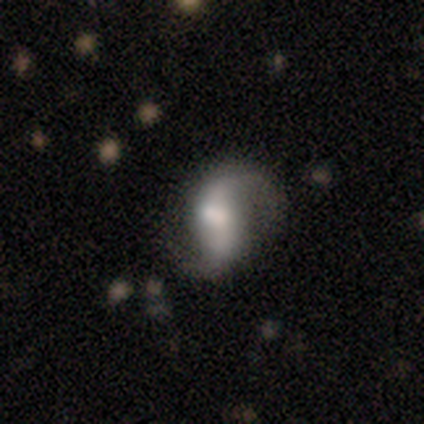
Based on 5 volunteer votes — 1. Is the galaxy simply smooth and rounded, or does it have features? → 80% featured or disk, 20% star or artifact, 0% smooth.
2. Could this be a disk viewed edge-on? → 100% no, 0% yes.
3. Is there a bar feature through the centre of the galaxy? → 75% weak, 25% strong, 0% no.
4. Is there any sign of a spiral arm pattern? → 75% yes, 25% no.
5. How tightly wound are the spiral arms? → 100% loose, 0% tight, 0% medium.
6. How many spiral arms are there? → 100% 2, 0% 1, 0% 3, 0% 4, 0% more than 4, 0% can't tell.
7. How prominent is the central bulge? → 50% moderate, 25% large, 25% small, 0% dominant, 0% none.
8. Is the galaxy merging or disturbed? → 100% minor disturbance, 0% none, 0% major disturbance, 0% merger.